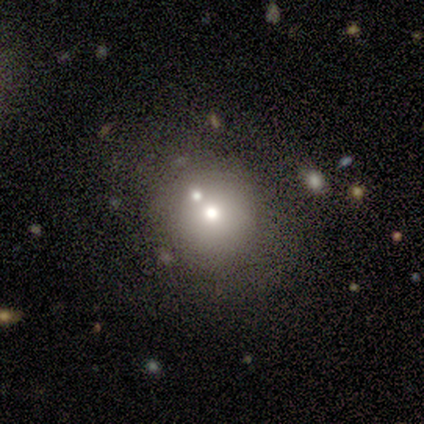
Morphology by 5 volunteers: smooth-or-featured: smooth: 80% | featured or disk: 20% | star or artifact: 0%
  how-rounded: round: 100% | in between: 0% | cigar-shaped: 0%
  merging: none: 80% | merger: 20% | minor disturbance: 0% | major disturbance: 0%